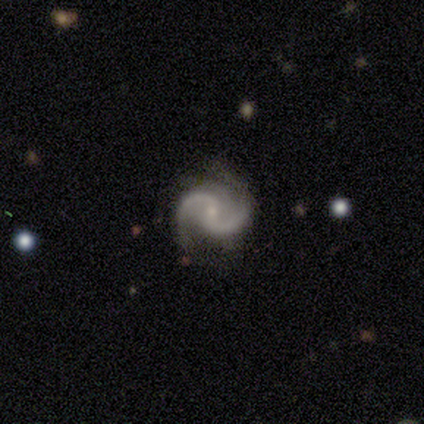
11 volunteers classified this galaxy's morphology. Q: Smooth or featured?
A: featured or disk (91%); runner-up: star or artifact (9%)
Q: Edge-on disk?
A: no (100%)
Q: Bar?
A: no (50%); runner-up: weak (40%)
Q: Spiral arms?
A: yes (100%)
Q: Spiral winding?
A: medium (60%); runner-up: loose (30%)
Q: Spiral arm count?
A: 2 (100%)
Q: Bulge size?
A: small (50%); runner-up: moderate (20%)
Q: Merging?
A: none (80%); runner-up: minor disturbance (20%)